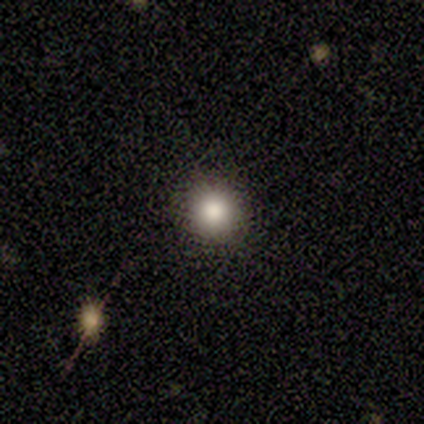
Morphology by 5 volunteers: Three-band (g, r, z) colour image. It shows a smooth galaxy with no disk features (100%) that is round (80%). Merging: none (80%).